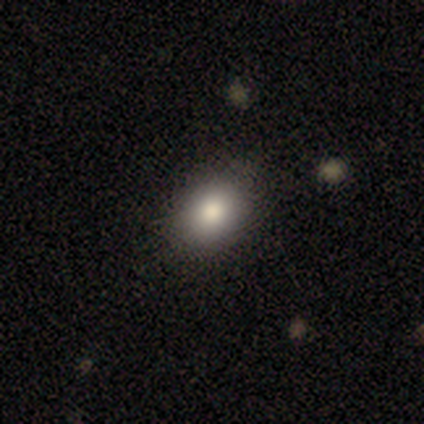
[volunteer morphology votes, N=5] A smooth galaxy with no disk features (80%) that is in between round and cigar-shaped (75%). Merging: none (60%).